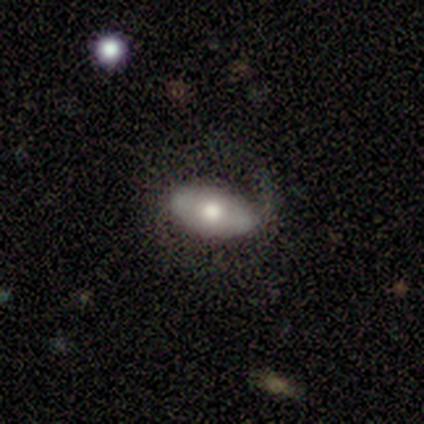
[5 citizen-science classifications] Smooth or featured: smooth — 60% (featured or disk — 40%)
How rounded: in between — 67% (cigar-shaped — 33%)
Merging: none — 60% (major disturbance — 40%)